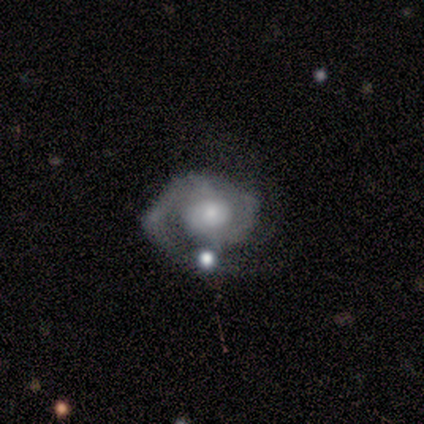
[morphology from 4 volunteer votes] Smooth or featured? 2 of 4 (50%, tied with star or artifact) said featured or disk. Edge-on disk? 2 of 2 (100%) said no. Bar? 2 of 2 (100%) said no. Spiral arms? 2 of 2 (100%) said yes. Spiral winding? 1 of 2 (50%, tied with medium) said tight. Spiral arm count? 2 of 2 (100%) said 2. Bulge size? 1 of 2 (50%, tied with small) said moderate. Merging? 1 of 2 (50%, tied with minor disturbance) said none.